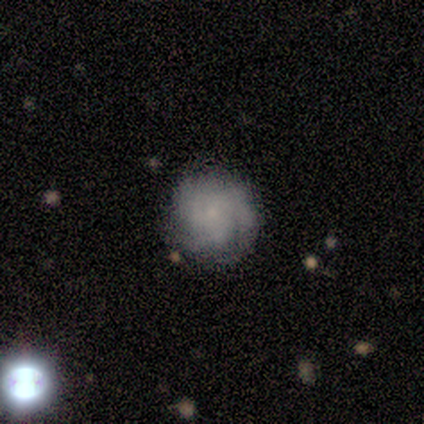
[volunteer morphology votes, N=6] type=smooth (50%); roundness=round (100%); merging=none (80%).